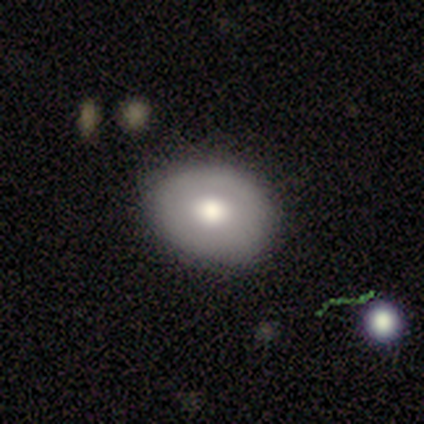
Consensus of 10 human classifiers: Morphology: type=smooth (80%); roundness=round (62%); merging=none (80%).